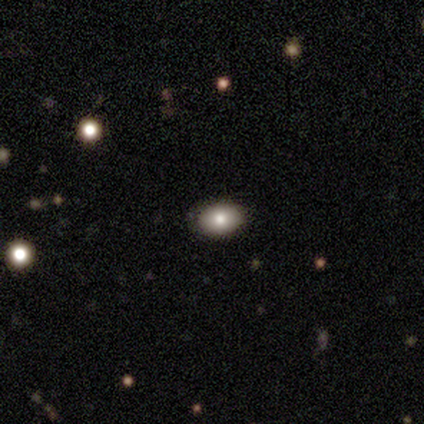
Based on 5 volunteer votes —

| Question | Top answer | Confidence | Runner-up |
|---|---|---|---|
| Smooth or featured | smooth | 60% | star or artifact (40%) |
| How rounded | in between | 100% | — |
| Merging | none | 100% | — |